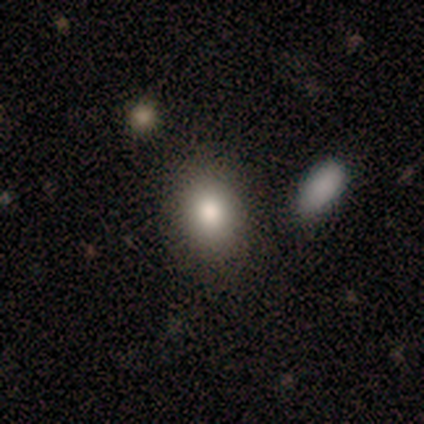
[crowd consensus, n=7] Smooth or featured? smooth (100%)
How rounded? in between (57%)
Merging? none (86%)